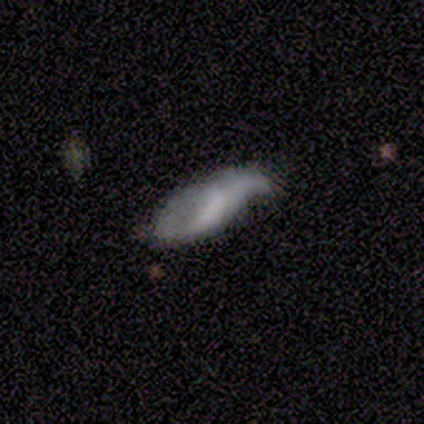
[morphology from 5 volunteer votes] smooth_or_featured: featured or disk (p=0.80) [alt: smooth p=0.20]
disk_edge_on: no (p=1.00)
bar: weak (p=0.50) [tied with: no p=0.50]
has_spiral_arms: yes (p=0.75) [alt: no p=0.25]
spiral_winding: loose (p=1.00)
spiral_arm_count: 2 (p=1.00)
bulge_size: none (p=0.75) [alt: small p=0.25]
merging: minor disturbance (p=0.40) [alt: none p=0.20]